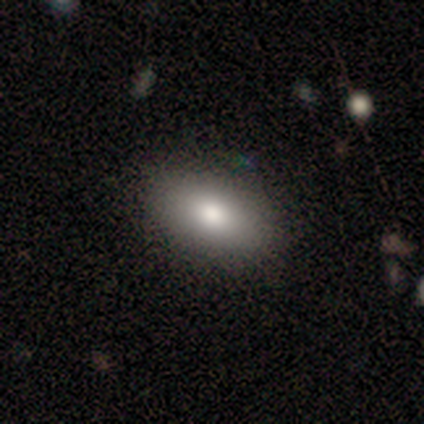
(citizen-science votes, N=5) Volunteers were most divided on "smooth or featured": smooth: 80%, star or artifact: 20%, featured or disk: 0%. More confident: how rounded — in between (100%); merging — none (100%).